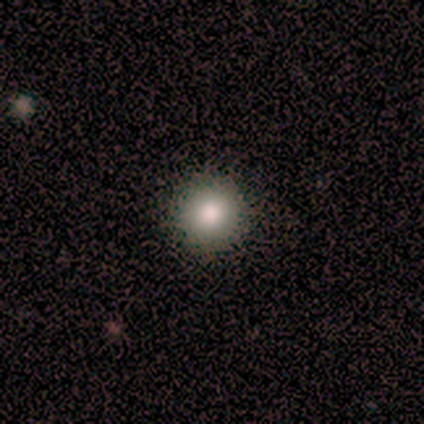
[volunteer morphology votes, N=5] smooth 60%, featured or disk 40%, star or artifact 0%. Down the decision tree: how rounded — round (67%); merging — none (80%).